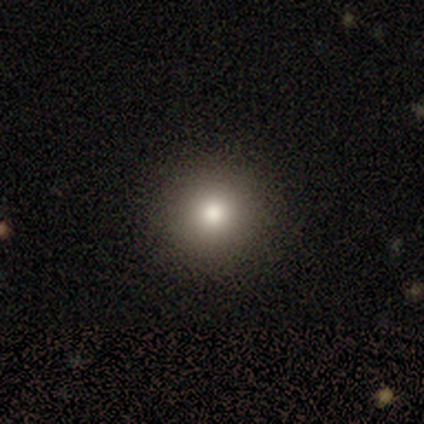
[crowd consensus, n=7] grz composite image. It shows a smooth galaxy with no disk features (71%) that is round (100%). Merging: none (83%).